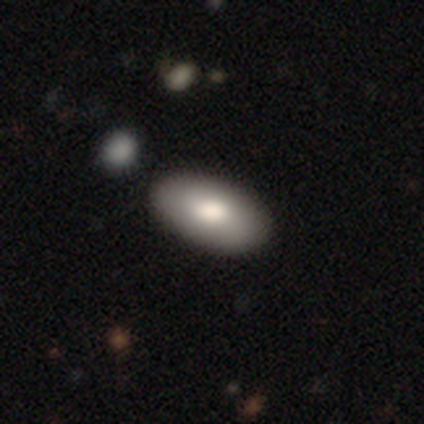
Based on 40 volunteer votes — A smooth galaxy with no disk features (78%) that is in between round and cigar-shaped (100%).

Vote fractions:
- Smooth or featured? smooth: 78% / featured or disk: 18% / star or artifact: 5%
- How rounded? in between: 100% / round: 0% / cigar-shaped: 0%
- Merging? none: 63% / minor disturbance: 8% / merger: 8% / major disturbance: 0%